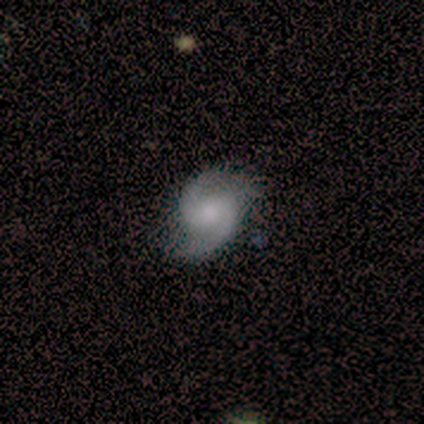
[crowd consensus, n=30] featured or disk 73%, smooth 13%, star or artifact 13%. Down the decision tree: edge-on disk — no (95%); bar — weak (48%, tied with no); spiral arms — yes (95%); spiral arm count — 2 (95%); spiral winding — medium (50%); bulge size — moderate (38%); merging — none (77%).